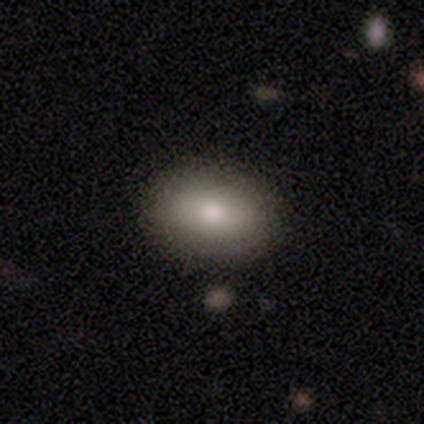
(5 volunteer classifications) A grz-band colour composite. It shows a smooth galaxy with no disk features (80%) that is in between round and cigar-shaped (75%). Merging: none (100%).